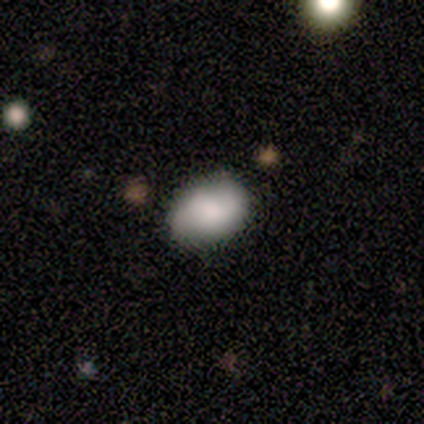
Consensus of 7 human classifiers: This is likely a smooth galaxy (71%). How rounded: clearly in between (80%). Merging: possibly none (57%).